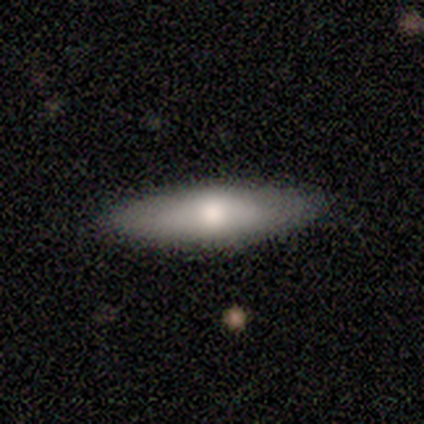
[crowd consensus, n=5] Smooth or featured?
  - smooth: 100% *
  - featured or disk: 0%
  - star or artifact: 0%
How rounded?
  - cigar-shaped: 80% *
  - in between: 20%
  - round: 0%
Merging?
  - none: 100% *
  - minor disturbance: 0%
  - major disturbance: 0%
  - merger: 0%